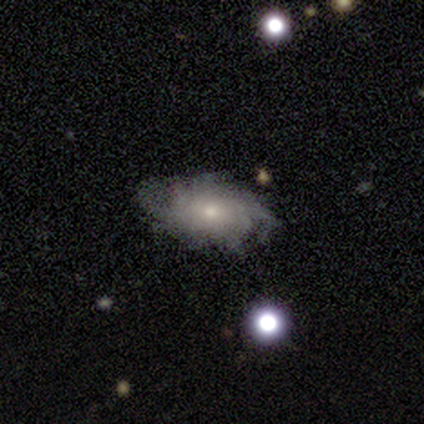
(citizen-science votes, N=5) smooth-or-featured: featured or disk: 60% | smooth: 40% | star or artifact: 0%
  disk-edge-on: no: 100% | yes: 0%
    bar: no: 100% | strong: 0% | weak: 0%
    has-spiral-arms: yes: 100% | no: 0%
      spiral-winding: tight: 67% | medium: 33% | loose: 0%
      spiral-arm-count: more than 4: 100% | 1: 0% | 2: 0% | 3: 0% | 4: 0% | can't tell: 0%
    bulge-size: small: 100% | dominant: 0% | large: 0% | moderate: 0% | none: 0%
  merging: none: 100% | minor disturbance: 0% | major disturbance: 0% | merger: 0%